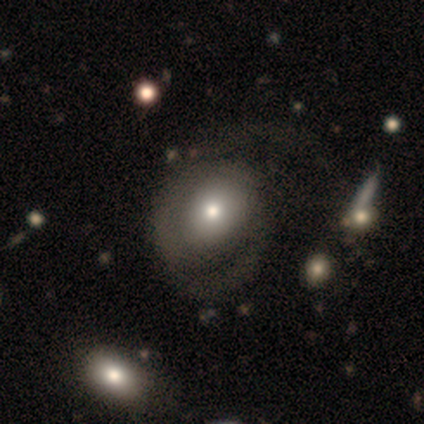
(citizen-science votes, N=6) smooth-or-featured: featured or disk: 67% | smooth: 33% | star or artifact: 0%
  disk-edge-on: no: 100% | yes: 0%
    bar: no: 100% | strong: 0% | weak: 0%
    has-spiral-arms: yes: 75% | no: 25%
      spiral-winding: tight: 33% (tied) | medium: 33% (tied) | loose: 33% (tied)
      spiral-arm-count: 2: 67% | can't tell: 33% | 1: 0% | 3: 0% | 4: 0% | more than 4: 0%
    bulge-size: small: 75% | moderate: 25% | dominant: 0% | large: 0% | none: 0%
  merging: none: 50% | major disturbance: 33% | minor disturbance: 17% | merger: 0%